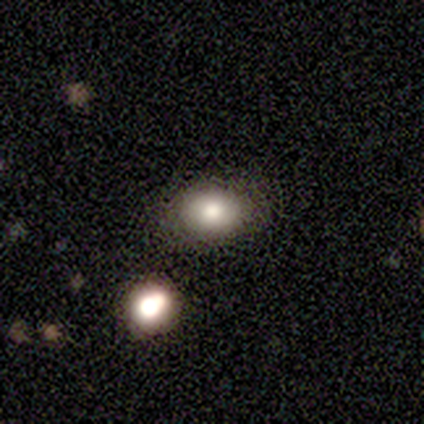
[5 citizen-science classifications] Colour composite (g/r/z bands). It shows a smooth galaxy with no disk features (80%) that is round (50%, tied with in between). Merging: none (75%).